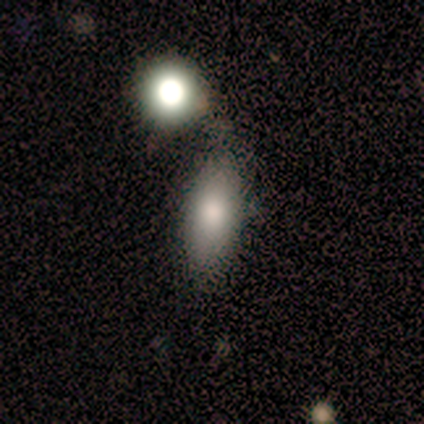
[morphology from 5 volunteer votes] Smooth or featured? smooth (80%)
How rounded? in between (75%)
Merging? none (100%)